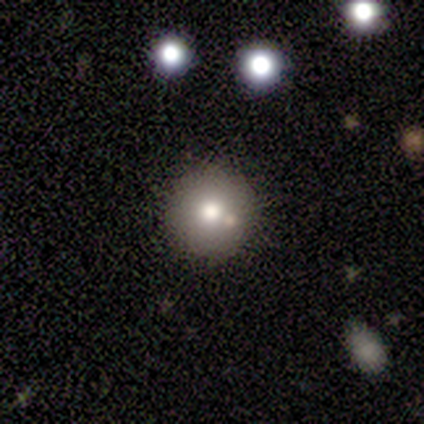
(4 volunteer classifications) Smooth or featured? smooth (75%)
How rounded? round (100%)
Merging? none (100%)